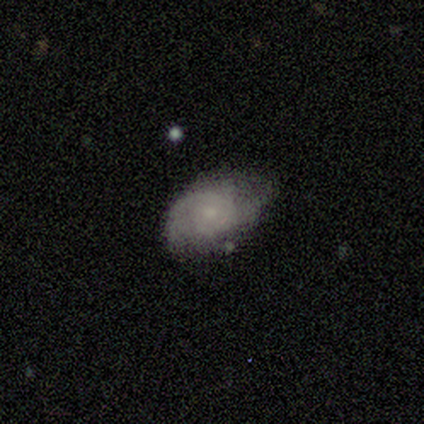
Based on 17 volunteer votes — Volunteers were most divided on "spiral winding" (2-way tie): tight: 44%, medium: 44%, loose: 11%. Remaining: spiral arms — yes (100%); edge-on disk — no (90%); bar — no (89%); smooth or featured — featured or disk (59%); bulge size — small (56%); merging — none (53%); spiral arm count — 2 (44%).